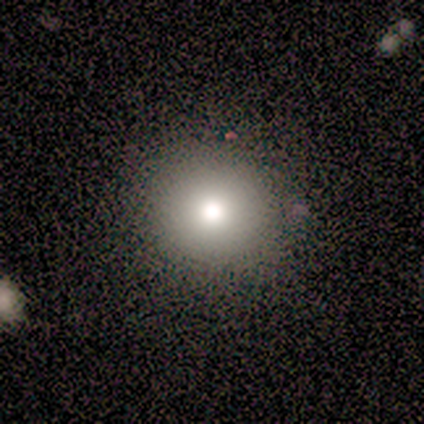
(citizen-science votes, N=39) Q: Smooth or featured?
A: smooth (82%); runner-up: featured or disk (13%)
Q: How rounded?
A: round (94%); runner-up: in between (6%)
Q: Merging?
A: none (65%); runner-up: merger (8%)